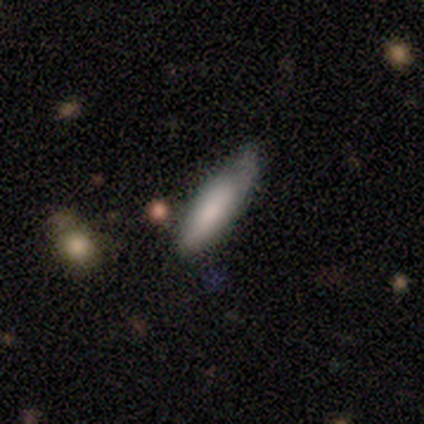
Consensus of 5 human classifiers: Overall: smooth (80%). How rounded: cigar-shaped (75%). Merging: minor disturbance (80%).